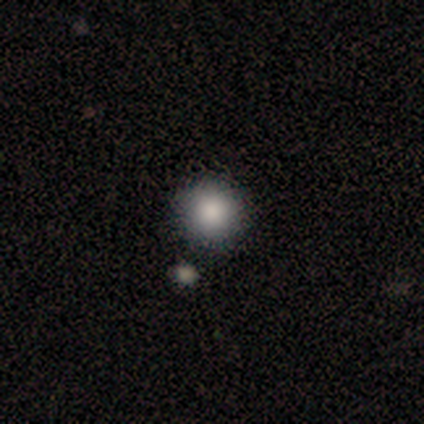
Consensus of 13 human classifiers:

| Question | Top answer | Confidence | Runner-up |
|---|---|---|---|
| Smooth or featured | smooth | 100% | — |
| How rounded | round | 85% | in between (15%) |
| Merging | none | 77% | minor disturbance (15%) |